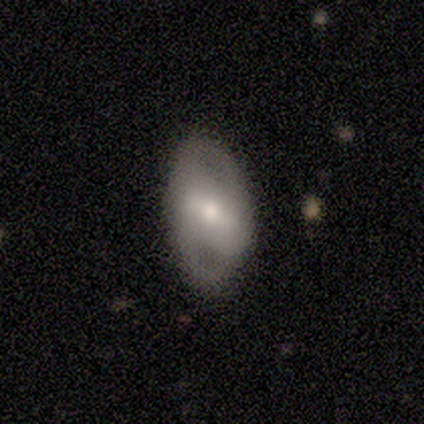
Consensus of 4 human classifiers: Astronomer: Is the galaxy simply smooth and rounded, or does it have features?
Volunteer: smooth — 50%, tied with featured or disk at 50%.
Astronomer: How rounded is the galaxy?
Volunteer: in between — 100%.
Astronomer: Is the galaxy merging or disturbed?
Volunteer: none — 75%.